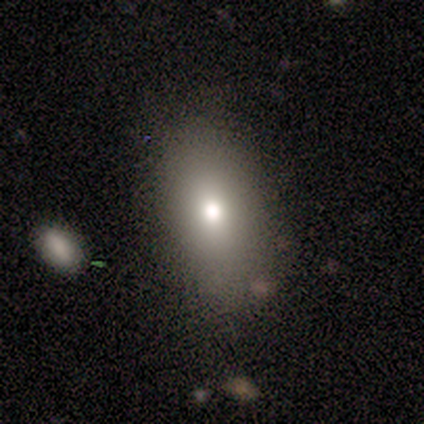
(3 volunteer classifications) This appears to be a smooth galaxy with no disk features (67%) that is in between round and cigar-shaped (100%). Merging: none (67%).